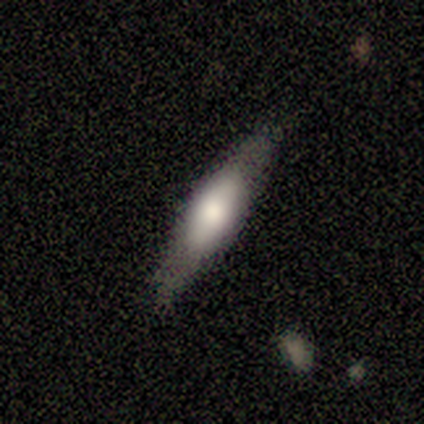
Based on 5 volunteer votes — Overall: featured or disk (80%). Edge-on disk: yes (100%). Edge-on bulge: rounded (100%). Merging: none (60%; minor disturbance 40%).